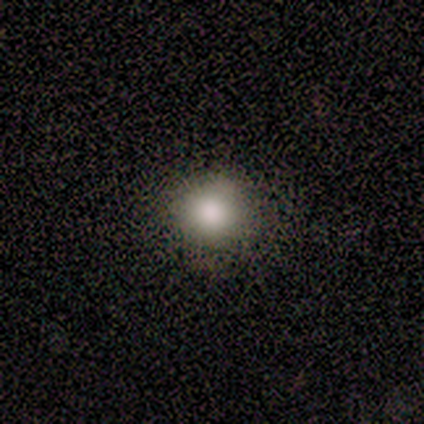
smooth_or_featured: smooth (p=0.80) [alt: featured or disk p=0.20]
how_rounded: round (p=1.00)
merging: none (p=0.80) [alt: minor disturbance p=0.20]